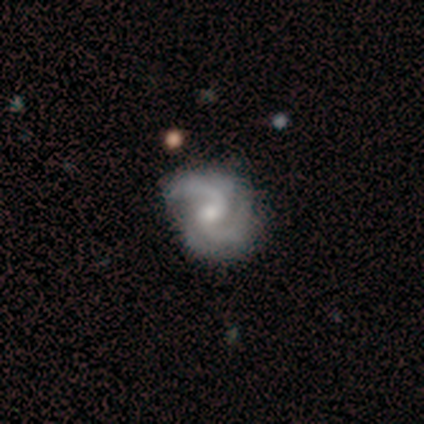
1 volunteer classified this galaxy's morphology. featured or disk 100%, smooth 0%, star or artifact 0%. Down the decision tree: edge-on disk — no (100%); bar — weak (100%); spiral arms — yes (100%); spiral arm count — 2 (100%); spiral winding — medium (100%); bulge size — small (100%); merging — none (100%).